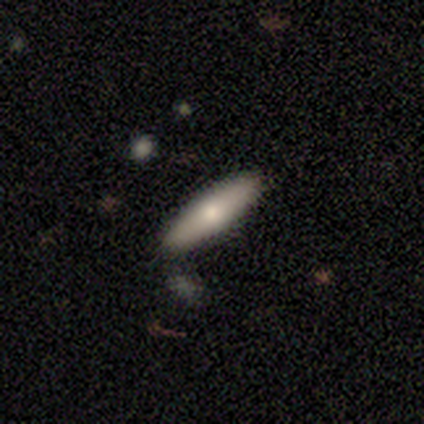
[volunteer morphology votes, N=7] This appears to be a smooth galaxy with no disk features (86%) that is cigar-shaped (67%). Merging: none (86%).